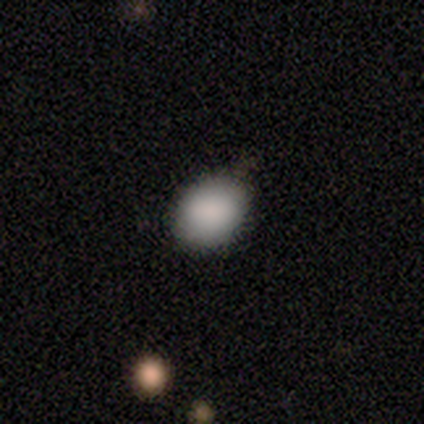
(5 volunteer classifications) Overall: smooth (80%). How rounded: round (50%, tied with in between). Merging: none (50%, tied with minor disturbance).